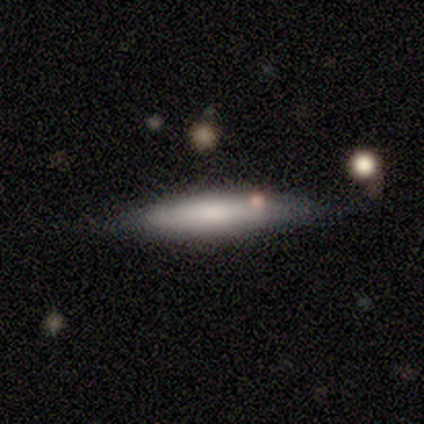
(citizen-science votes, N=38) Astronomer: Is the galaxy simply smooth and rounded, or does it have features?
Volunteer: smooth — 55% (runner-up: featured or disk, 42%).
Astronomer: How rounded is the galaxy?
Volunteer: cigar-shaped — 76%.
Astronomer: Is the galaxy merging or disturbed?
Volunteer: none — 76%.